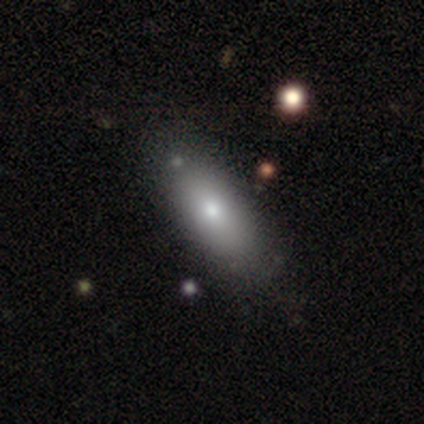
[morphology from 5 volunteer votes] Smooth or featured: smooth — 100%
How rounded: in between — 100%
Merging: minor disturbance — 60% (none — 40%)